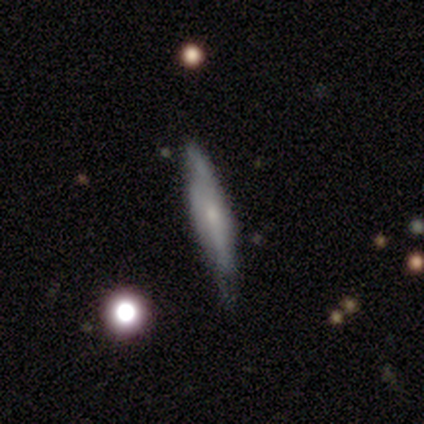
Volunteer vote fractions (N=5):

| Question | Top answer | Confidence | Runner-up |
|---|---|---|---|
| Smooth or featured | smooth | 60% | featured or disk (40%) |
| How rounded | cigar-shaped | 100% | — |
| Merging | minor disturbance | 60% | none (40%) |